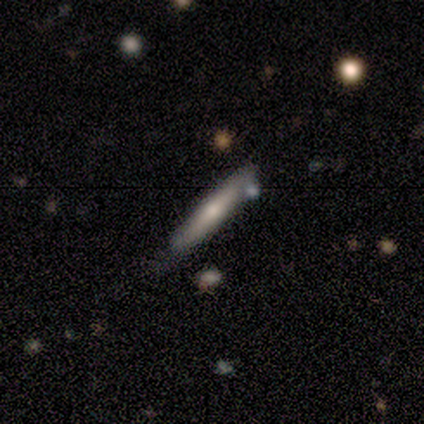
This appears to be a featured or disk galaxy (60%) viewed edge-on (100%) with a rounded central bulge (100%). Merging: none (60%).